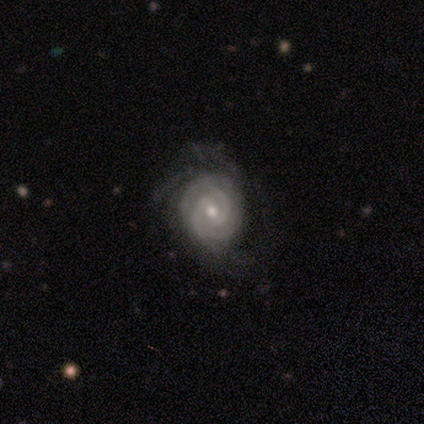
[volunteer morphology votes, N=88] Smooth or featured: featured or disk — 89% (smooth — 7%)
Edge-on disk: no — 100%
Bar: weak — 60% (no — 29%)
Spiral arms: yes — 97% (no — 3%)
Spiral winding: tight — 83% (medium — 17%)
Spiral arm count: 2 — 62% (3 — 17%)
Bulge size: small — 60% (moderate — 33%)
Merging: none — 52% (minor disturbance — 27%)